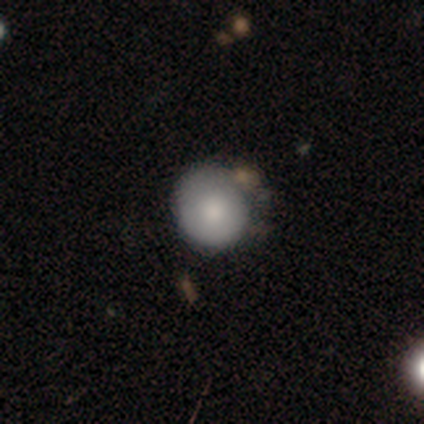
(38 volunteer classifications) A smooth galaxy with no disk features (66%) that is round (92%).

Vote fractions:
- Smooth or featured? smooth: 66% / featured or disk: 32% / star or artifact: 3%
- How rounded? round: 92% / in between: 8% / cigar-shaped: 0%
- Merging? none: 38% / minor disturbance: 19% / merger: 14% / major disturbance: 3%